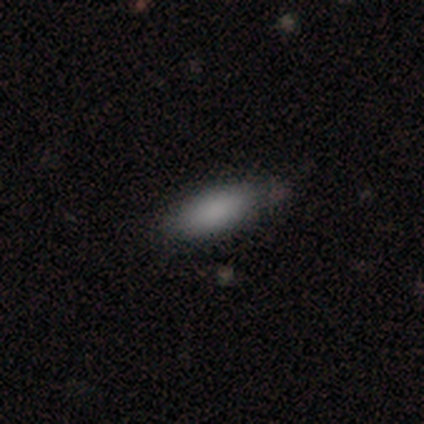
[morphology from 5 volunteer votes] Overall: smooth (100%). How rounded: in between (100%). Merging: none (40%, tied with minor disturbance).